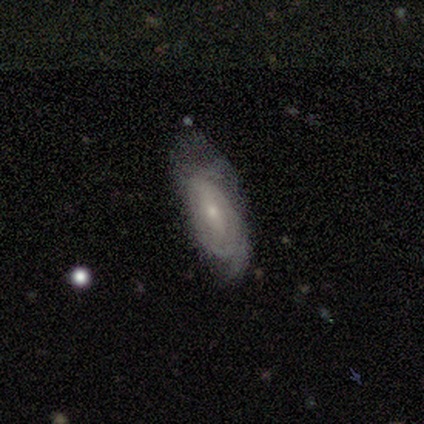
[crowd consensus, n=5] Smooth or featured? featured or disk (60%)
Edge-on disk? no (100%)
Bar? no (100%)
Spiral arms? yes (67%)
Spiral winding? tight (50%, tied with loose)
Spiral arm count? 1 (50%, tied with can't tell)
Bulge size? small (100%)
Merging? none (60%)